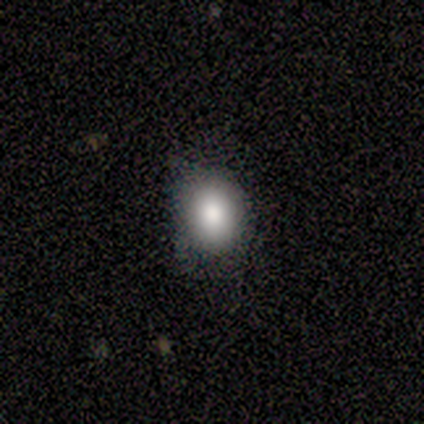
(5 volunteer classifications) This is clearly a smooth galaxy (80%). How rounded: clearly round (100%). Merging: clearly none (100%).